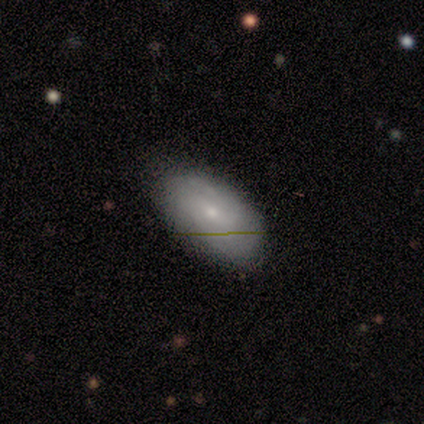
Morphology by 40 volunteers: Overall: smooth (50%; featured or disk 40%). How rounded: in between (100%). Merging: none (72%).